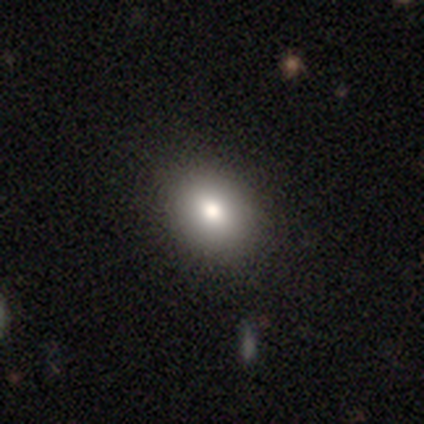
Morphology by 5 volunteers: This is clearly a smooth galaxy (80%). How rounded: clearly in between (100%). Merging: clearly none (100%).